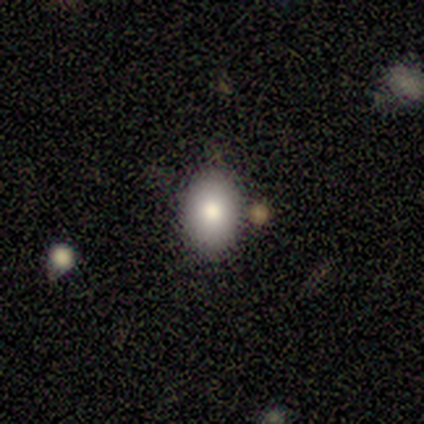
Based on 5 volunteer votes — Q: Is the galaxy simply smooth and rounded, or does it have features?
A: smooth — 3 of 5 (60%).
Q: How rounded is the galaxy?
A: in between — 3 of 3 (100%).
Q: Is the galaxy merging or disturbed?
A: none — 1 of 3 (33%, tied with minor disturbance and major disturbance).